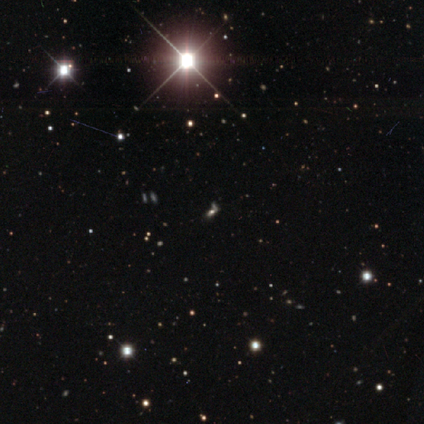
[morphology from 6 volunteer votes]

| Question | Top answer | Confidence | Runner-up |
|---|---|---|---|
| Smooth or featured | star or artifact | 100% | — |